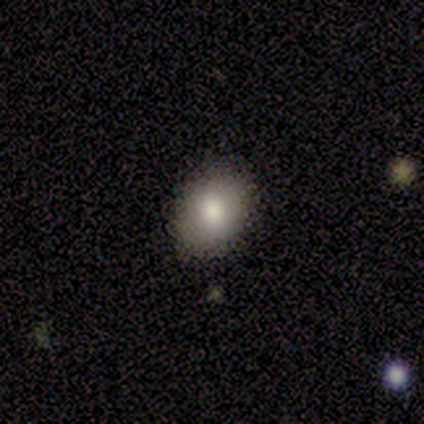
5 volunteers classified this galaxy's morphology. A smooth galaxy with no disk features (80%) that is in between round and cigar-shaped (75%). Merging: none (80%).